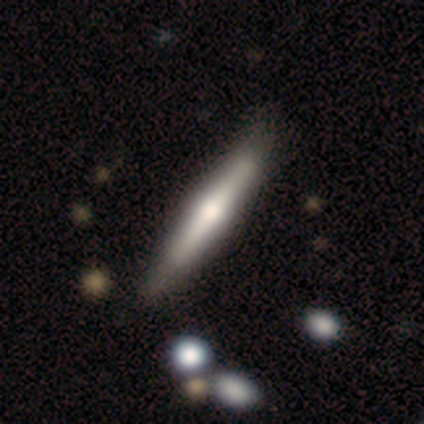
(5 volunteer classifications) This appears to be a smooth galaxy with no disk features (80%) that is cigar-shaped (100%). Merging: none (100%).